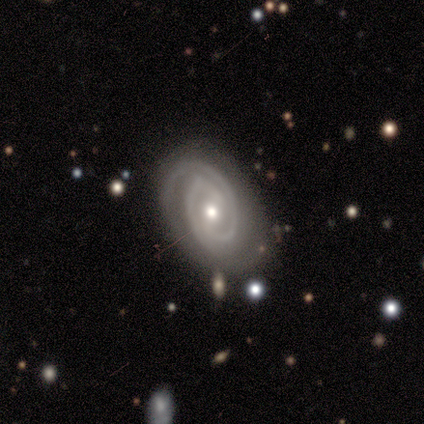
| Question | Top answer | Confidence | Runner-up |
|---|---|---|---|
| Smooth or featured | featured or disk | 100% | — |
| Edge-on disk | no | 100% | — |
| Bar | weak | 60% | strong (20%) |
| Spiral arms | yes | 100% | — |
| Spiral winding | tight | 80% | medium (20%) |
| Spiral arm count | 2 | 100% | — |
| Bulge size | small | 60% | moderate (40%) |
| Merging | none | 80% | minor disturbance (20%) |